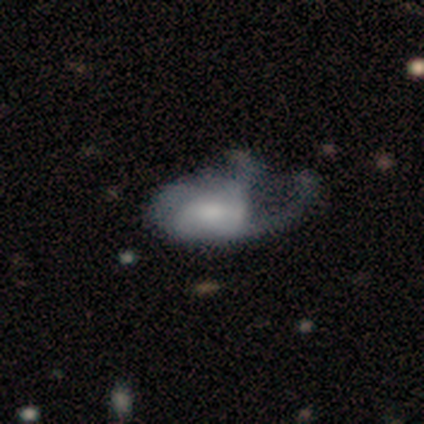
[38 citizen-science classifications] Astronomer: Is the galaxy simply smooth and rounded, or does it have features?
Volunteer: featured or disk — 71%.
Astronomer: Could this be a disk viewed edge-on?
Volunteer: no — 96%.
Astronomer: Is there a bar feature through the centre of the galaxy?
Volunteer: weak — 58% (runner-up: no, 35%).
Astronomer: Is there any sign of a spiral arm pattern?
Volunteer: yes — 85%.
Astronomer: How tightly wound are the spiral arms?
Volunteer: loose — 55% (runner-up: medium, 36%).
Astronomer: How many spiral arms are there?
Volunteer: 2 — 32% (runner-up: 1, 23%).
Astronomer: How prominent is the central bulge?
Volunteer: moderate — 50%.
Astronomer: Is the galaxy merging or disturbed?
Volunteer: major disturbance — 50%.